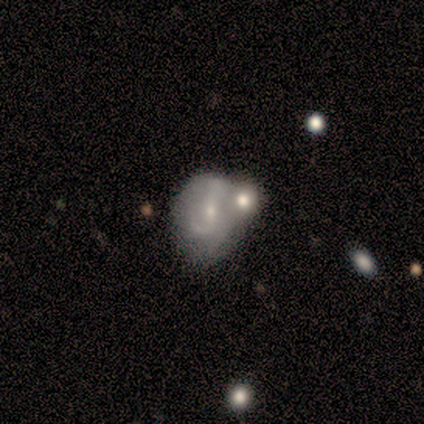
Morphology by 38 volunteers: featured or disk 58%, smooth 24%, star or artifact 18%. Down the decision tree: edge-on disk — no (100%); bar — strong (41%); spiral arms — yes (68%); spiral arm count — 2 (73%); spiral winding — medium (40%); bulge size — small (77%); merging — merger (48%).